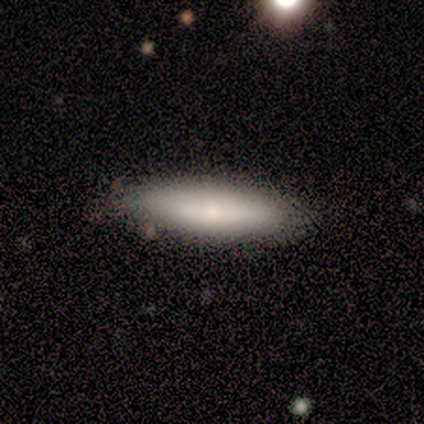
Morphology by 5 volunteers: A smooth galaxy with no disk features (80%) that is cigar-shaped (75%). Merging: minor disturbance (60%).